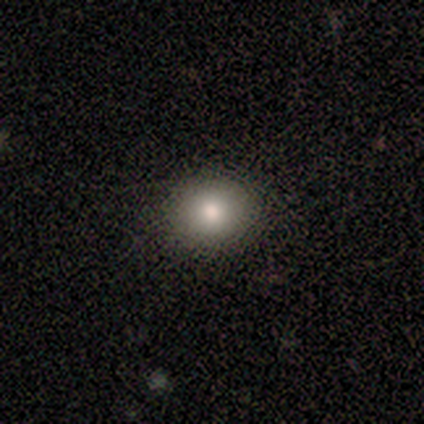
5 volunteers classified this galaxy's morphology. Smooth or featured: smooth — 80% (star or artifact — 20%)
How rounded: round — 100%
Merging: none — 100%